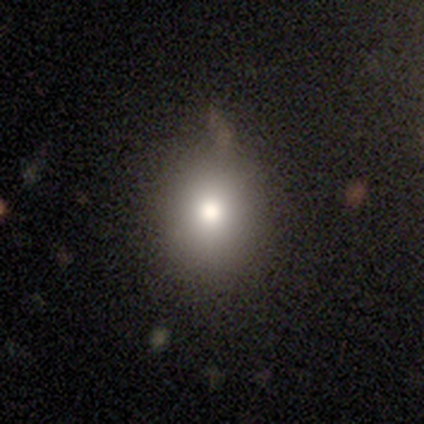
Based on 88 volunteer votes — smooth 74%, star or artifact 18%, featured or disk 8%. Down the decision tree: how rounded — round (69%); merging — none (74%).